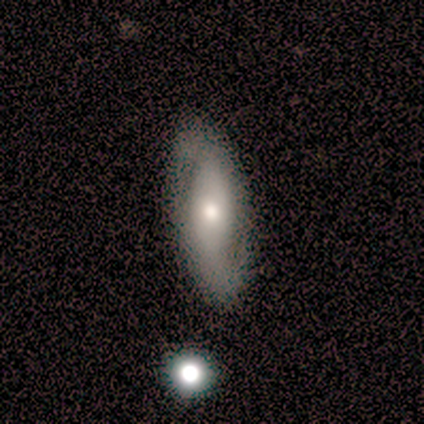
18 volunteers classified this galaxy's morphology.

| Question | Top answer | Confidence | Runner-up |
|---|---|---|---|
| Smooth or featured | smooth | 44% | tied: featured or disk (44%) |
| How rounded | in between | 62% | cigar-shaped (38%) |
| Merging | none | 69% | minor disturbance (31%) |